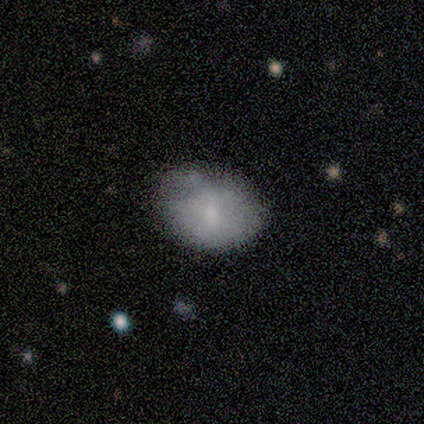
This is clearly a smooth galaxy (80%). How rounded: possibly round (50%, tied with in between). Merging: marginally none (40%, tied with minor disturbance).